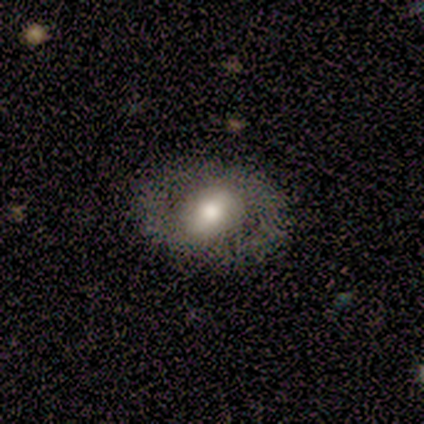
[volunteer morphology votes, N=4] smooth-or-featured: smooth: 50% (tied) | featured or disk: 50% (tied) | star or artifact: 0%
  how-rounded: round: 100% | in between: 0% | cigar-shaped: 0%
  merging: none: 50% | minor disturbance: 25% | merger: 25% | major disturbance: 0%